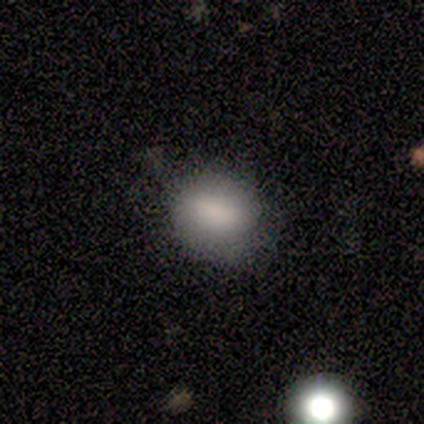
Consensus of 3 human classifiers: A smooth galaxy with no disk features (100%) that is in between round and cigar-shaped (100%). Merging: minor disturbance (100%).